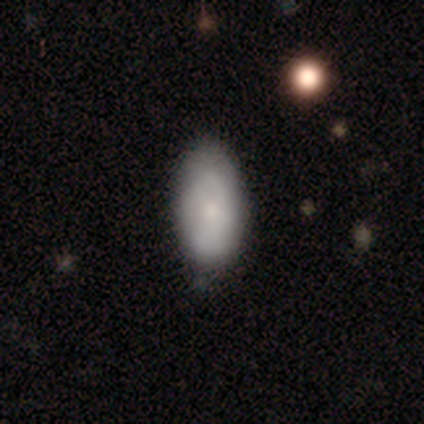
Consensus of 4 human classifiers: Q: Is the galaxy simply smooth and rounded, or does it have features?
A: smooth — 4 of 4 (100%).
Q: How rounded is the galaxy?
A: in between — 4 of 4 (100%).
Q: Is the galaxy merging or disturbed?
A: none — 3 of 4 (75%).